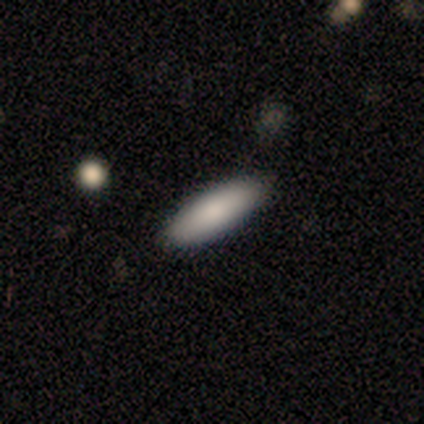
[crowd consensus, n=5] A smooth galaxy with no disk features (100%) that is cigar-shaped (60%). Merging: none (100%).